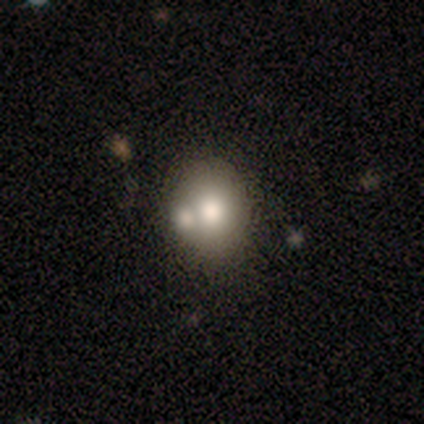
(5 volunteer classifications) Smooth or featured? smooth (40%, tied with featured or disk)
How rounded? round (50%, tied with in between)
Merging? none (50%)